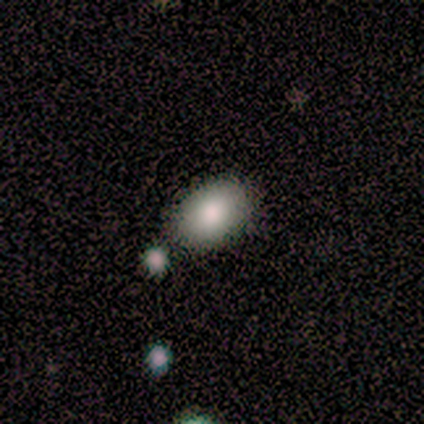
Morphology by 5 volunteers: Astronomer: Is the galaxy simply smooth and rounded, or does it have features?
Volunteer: smooth — 60%.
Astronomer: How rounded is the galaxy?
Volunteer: in between — 100%.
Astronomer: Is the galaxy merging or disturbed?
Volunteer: none — 100%.